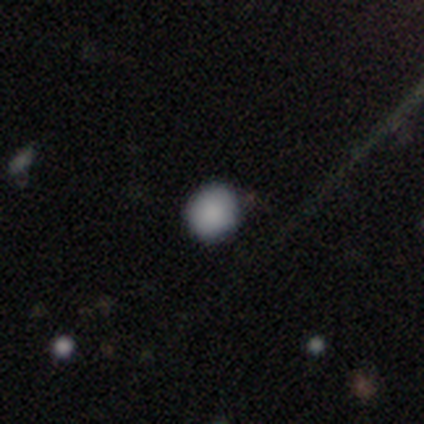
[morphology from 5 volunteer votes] A smooth galaxy with no disk features (80%) that is round (75%). Merging: none (100%).